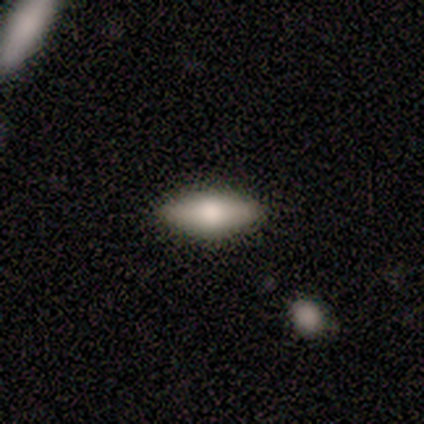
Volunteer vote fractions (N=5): Smooth or featured: smooth — 40% (tied with featured or disk — 40%)
How rounded: in between — 100%
Merging: none — 100%